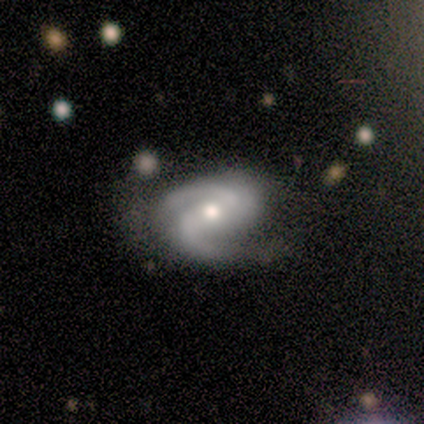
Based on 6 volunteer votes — A featured or disk galaxy (83%) with a strong bar (40%, tied with weak), 2 (100%) medium (60%) spiral arms (100%) and a moderate central bulge (80%). Merging: none (60%).